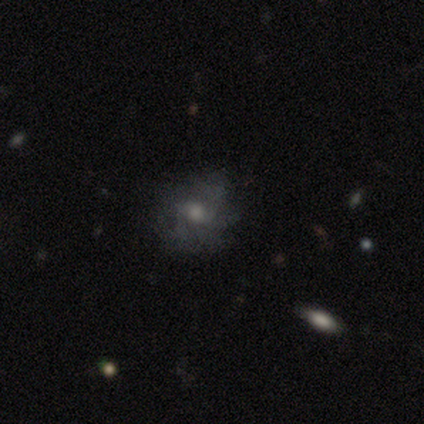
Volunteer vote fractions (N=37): smooth_or_featured: featured or disk (p=0.54) [alt: smooth p=0.27]
disk_edge_on: no (p=1.00)
bar: no (p=0.70) [alt: weak p=0.20]
has_spiral_arms: yes (p=0.60) [alt: no p=0.40]
spiral_winding: loose (p=0.42) [alt: medium p=0.33]
spiral_arm_count: can't tell (p=0.75) [alt: 2 p=0.17]
bulge_size: small (p=0.40) [alt: large p=0.25]
merging: none (p=0.63) [alt: minor disturbance p=0.23]